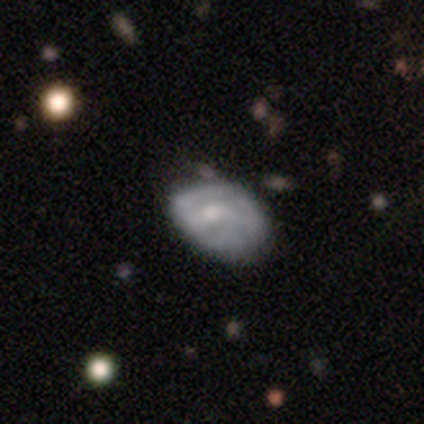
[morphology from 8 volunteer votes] type=smooth (62%); roundness=in between (80%); merging=none (88%).